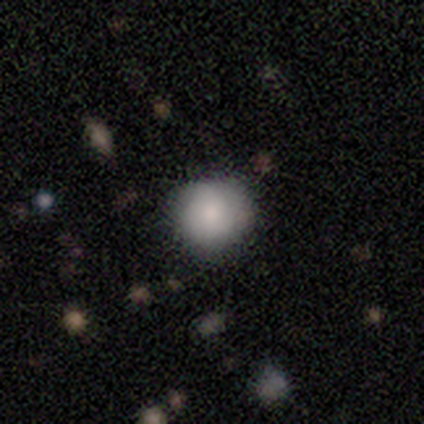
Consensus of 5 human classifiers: Overall: smooth (100%). How rounded: round (60%; in between 40%). Merging: none (100%).